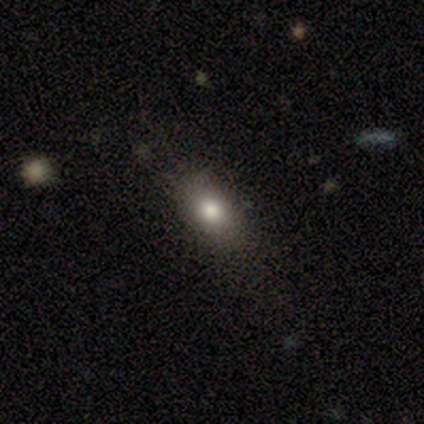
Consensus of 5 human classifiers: Smooth or featured? 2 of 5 (40%, tied with featured or disk) said smooth. How rounded? 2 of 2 (100%) said in between. Merging? 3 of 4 (75%) said none.